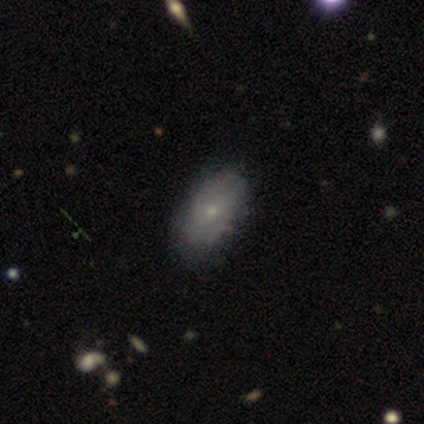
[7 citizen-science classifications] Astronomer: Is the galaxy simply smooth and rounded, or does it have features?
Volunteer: smooth — 57% (runner-up: featured or disk, 43%).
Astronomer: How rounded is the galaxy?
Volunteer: in between — 100%.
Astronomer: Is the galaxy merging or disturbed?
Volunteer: none — 71%.